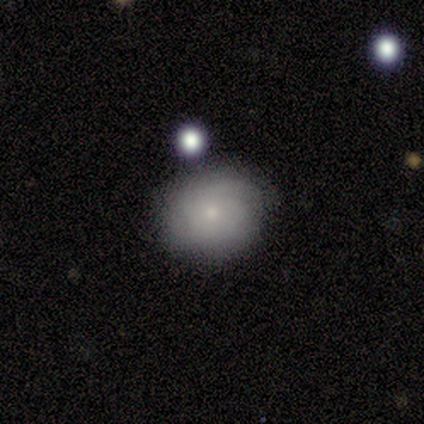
This is likely a featured or disk galaxy (60%). It is clearly not viewed edge-on (100%). Bar: likely no (67%). Spiral arm pattern: clearly yes (100%). Spiral arm count: likely can't tell (67%). Spiral winding: likely loose (67%). Central bulge: likely small (67%). Merging: likely none (60%).